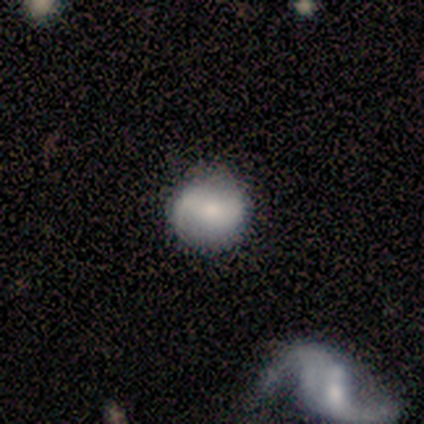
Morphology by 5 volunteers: This appears to be a featured or disk galaxy (60%) with a weak bar (67%), 1 (100%) medium (50%, tied with loose) spiral arms (67%) and a dominant central bulge (33%, tied with moderate and none). Merging: none (60%).